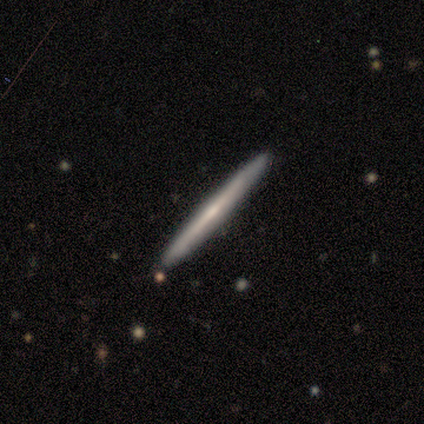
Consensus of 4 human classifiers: Overall: featured or disk (100%). Edge-on disk: yes (100%). Edge-on bulge: rounded (75%). Merging: none (75%).